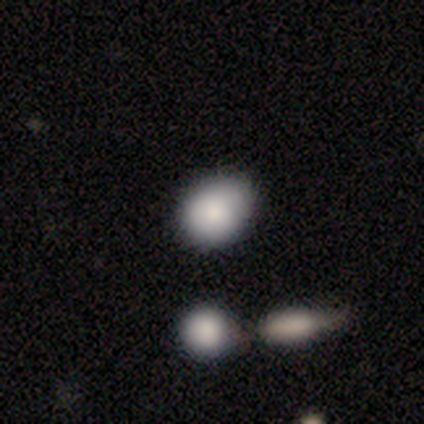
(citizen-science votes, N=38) This appears to be a smooth galaxy with no disk features (79%) that is in between round and cigar-shaped (60%). Merging: none (59%).